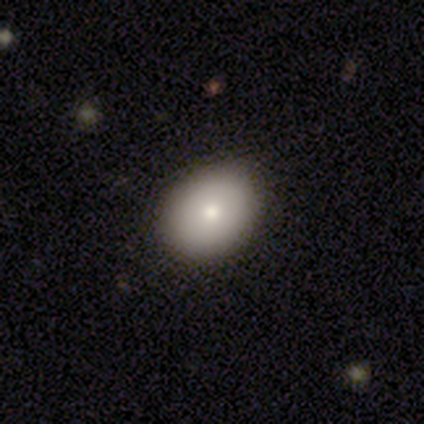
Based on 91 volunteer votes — smooth 78%, featured or disk 11%, star or artifact 11%. Down the decision tree: how rounded — in between (61%); merging — none (89%).